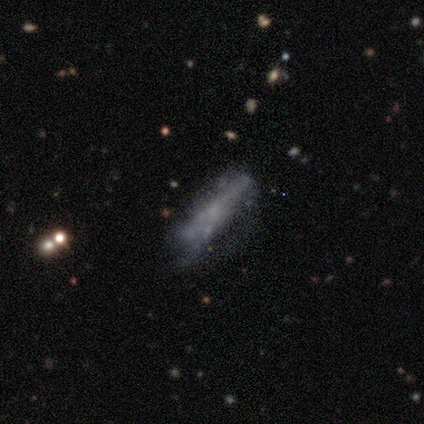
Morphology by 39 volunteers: smooth-or-featured: featured or disk: 54% | smooth: 33% | star or artifact: 13%
  disk-edge-on: no: 67% | yes: 33%
    bar: no: 93% | weak: 7% | strong: 0%
    has-spiral-arms: no: 93% | yes: 7%
    bulge-size: none: 79% | small: 14% | moderate: 7% | dominant: 0% | large: 0%
  merging: none: 44% | minor disturbance: 26% | major disturbance: 24% | merger: 6%